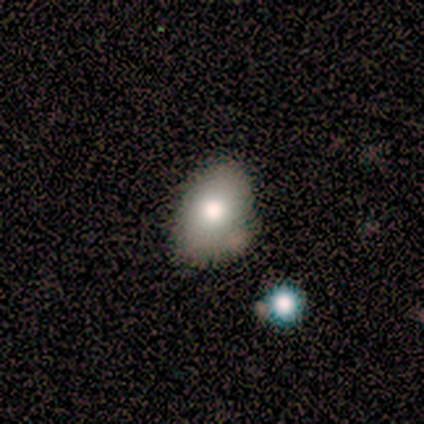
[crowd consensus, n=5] Smooth or featured: smooth — 80% (featured or disk — 20%)
How rounded: in between — 100%
Merging: none — 40% (tied with minor disturbance — 40%)